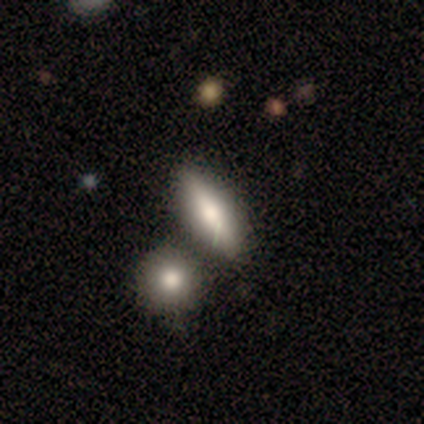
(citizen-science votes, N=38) Smooth or featured?
  - smooth: 84% *
  - featured or disk: 13%
  - star or artifact: 3%
How rounded?
  - in between: 53% *
  - cigar-shaped: 41%
  - round: 6%
Merging?
  - none: 73% *
  - merger: 19%
  - minor disturbance: 5%
  - major disturbance: 3%